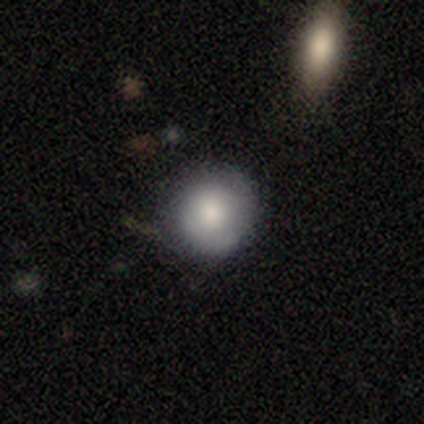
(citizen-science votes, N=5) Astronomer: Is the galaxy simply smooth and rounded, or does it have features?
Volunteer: smooth — 60% (runner-up: featured or disk, 40%).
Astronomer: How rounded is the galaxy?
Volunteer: round — 100%.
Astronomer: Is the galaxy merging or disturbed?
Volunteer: none — 100%.